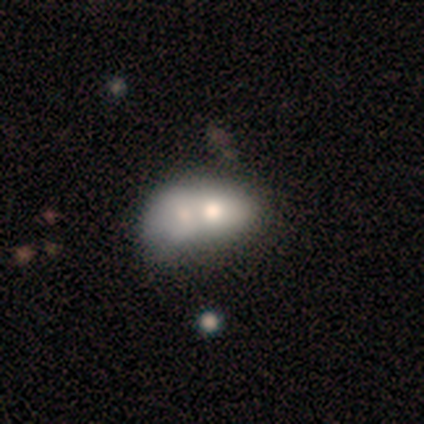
This is clearly a smooth galaxy (86%). How rounded: likely in between (67%). Merging: clearly merger (83%).